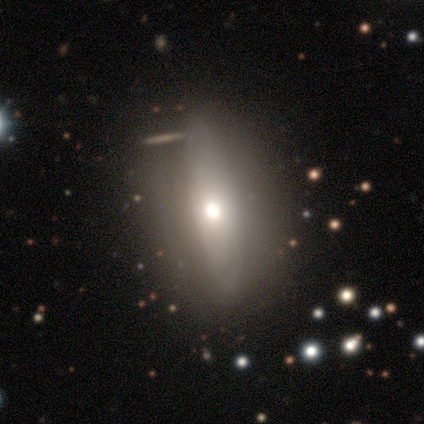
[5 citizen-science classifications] Smooth or featured? 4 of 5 (80%) said smooth. How rounded? 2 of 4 (50%, tied with cigar-shaped) said in between. Merging? 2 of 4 (50%, tied with minor disturbance) said none.